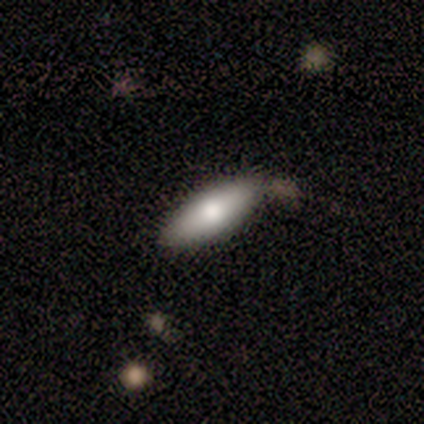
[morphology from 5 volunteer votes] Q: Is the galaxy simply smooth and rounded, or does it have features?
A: smooth — 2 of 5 (40%, tied with featured or disk).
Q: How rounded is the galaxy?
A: in between — 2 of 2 (100%).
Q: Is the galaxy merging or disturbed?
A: none — 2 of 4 (50%, tied with minor disturbance).